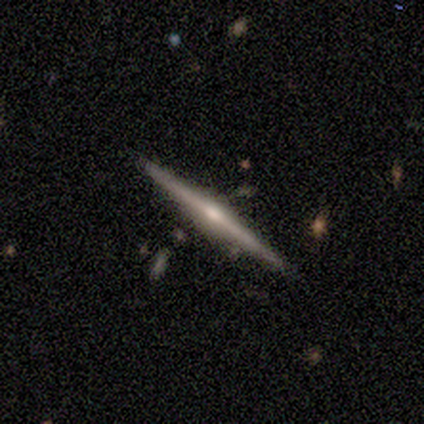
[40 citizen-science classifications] featured or disk 80%, smooth 18%, star or artifact 2%. Down the decision tree: edge-on disk — yes (100%); edge-on bulge — rounded (91%); merging — none (95%).